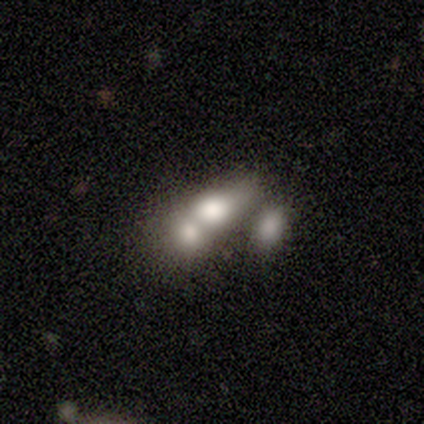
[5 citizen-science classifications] smooth-or-featured: smooth: 80% | featured or disk: 20% | star or artifact: 0%
  how-rounded: in between: 75% | round: 25% | cigar-shaped: 0%
  merging: none: 40% | minor disturbance: 20% | major disturbance: 20% | merger: 20%